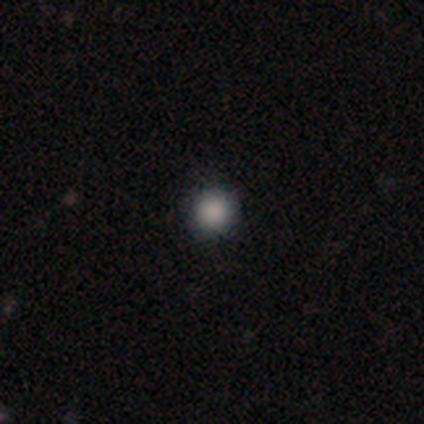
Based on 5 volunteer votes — Smooth or featured? smooth (80%)
How rounded? round (75%)
Merging? none (80%)